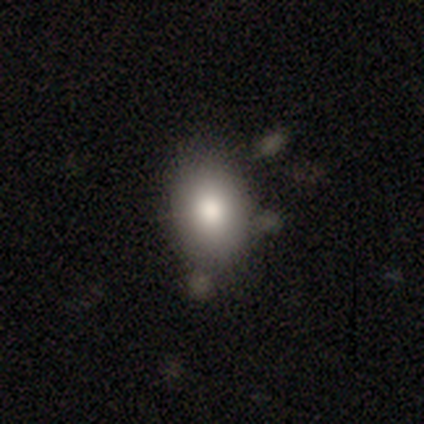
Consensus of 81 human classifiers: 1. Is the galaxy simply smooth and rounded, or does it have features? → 81% smooth, 11% star or artifact, 7% featured or disk.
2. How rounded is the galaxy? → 85% in between, 15% round, 0% cigar-shaped.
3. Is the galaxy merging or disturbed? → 64% none, 25% minor disturbance, 7% major disturbance, 4% merger.